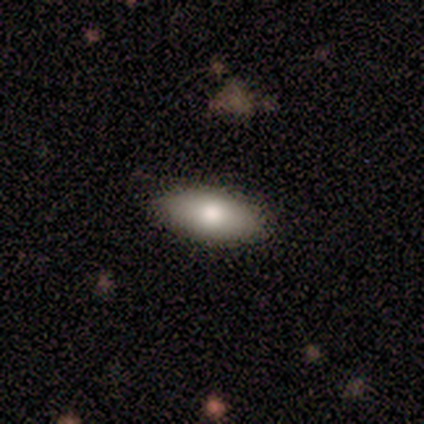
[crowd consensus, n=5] Smooth or featured?
  - smooth: 60% *
  - featured or disk: 40%
  - star or artifact: 0%
How rounded?
  - in between: 100% *
  - round: 0%
  - cigar-shaped: 0%
Merging?
  - none: 80% *
  - minor disturbance: 20%
  - major disturbance: 0%
  - merger: 0%